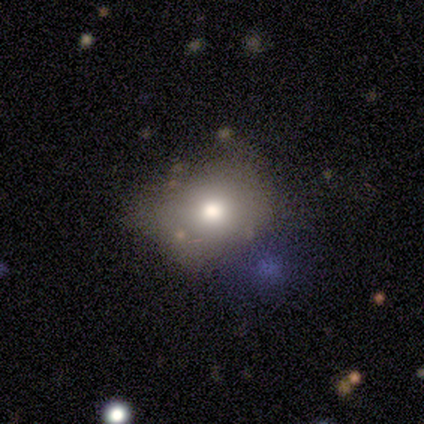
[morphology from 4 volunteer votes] Overall: smooth (50%, tied with featured or disk). How rounded: round (50%, tied with in between). Merging: none (75%).